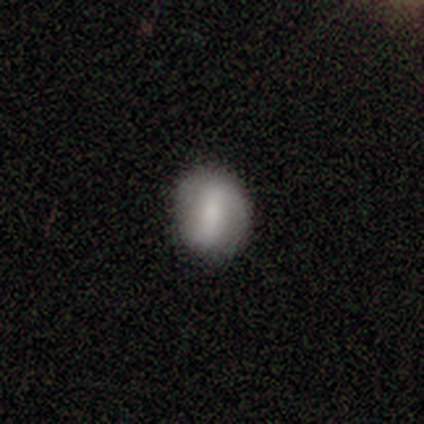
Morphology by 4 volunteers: smooth 75%, featured or disk 25%, star or artifact 0%. Down the decision tree: how rounded — round (100%); merging — none (100%).